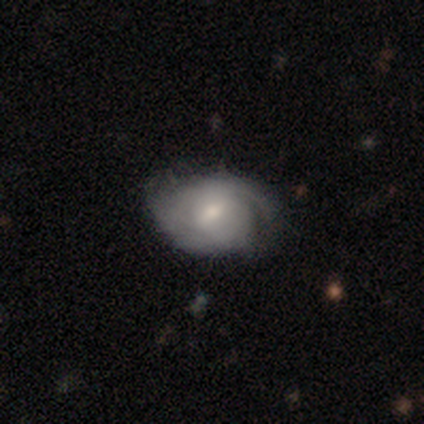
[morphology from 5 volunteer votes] smooth-or-featured: smooth: 40% (tied) | featured or disk: 40% (tied) | star or artifact: 20%
  how-rounded: round: 50% (tied) | in between: 50% (tied) | cigar-shaped: 0%
  merging: none: 75% | minor disturbance: 25% | major disturbance: 0% | merger: 0%